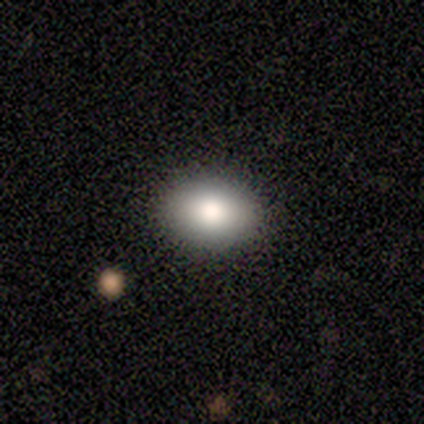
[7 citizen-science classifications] Smooth or featured? 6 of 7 (86%) said smooth. How rounded? 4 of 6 (67%) said in between. Merging? 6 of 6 (100%) said none.